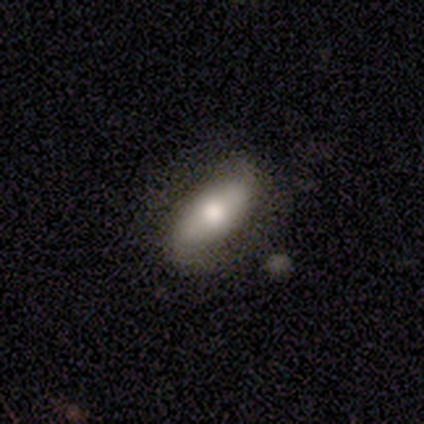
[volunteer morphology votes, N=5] smooth-or-featured: featured or disk: 60% | smooth: 40% | star or artifact: 0%
  disk-edge-on: no: 100% | yes: 0%
    bar: strong: 100% | weak: 0% | no: 0%
    has-spiral-arms: no: 67% | yes: 33%
    bulge-size: moderate: 100% | dominant: 0% | large: 0% | small: 0% | none: 0%
  merging: none: 100% | minor disturbance: 0% | major disturbance: 0% | merger: 0%